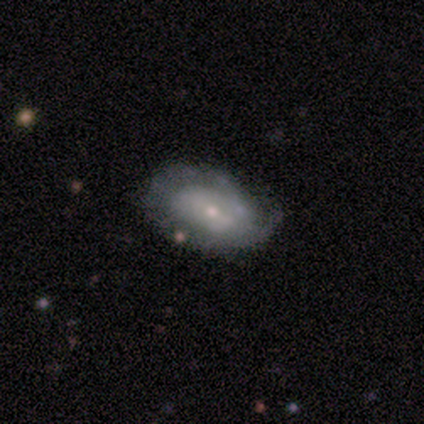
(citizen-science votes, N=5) featured or disk 60%, smooth 20%, star or artifact 20%. Down the decision tree: edge-on disk — no (67%); bar — weak (50%, tied with no); spiral arms — yes (100%); spiral arm count — 1 (50%, tied with can't tell); spiral winding — tight (100%); bulge size — small (100%); merging — minor disturbance (75%).